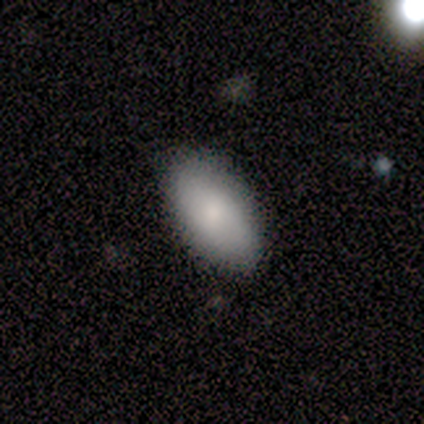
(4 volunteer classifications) Morphology: type=smooth (100%); roundness=in between (75%); merging=none (100%).